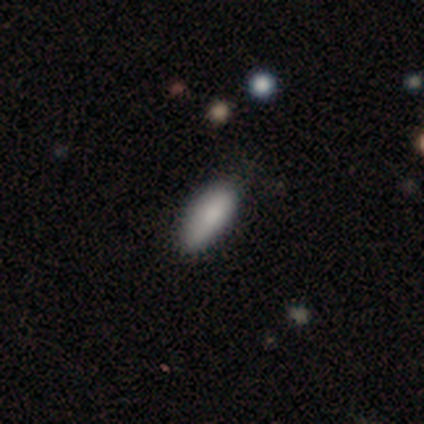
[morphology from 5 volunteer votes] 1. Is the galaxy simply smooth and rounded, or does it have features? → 80% smooth, 20% featured or disk, 0% star or artifact.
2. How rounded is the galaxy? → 50% in between (tied), 50% cigar-shaped (tied), 0% round.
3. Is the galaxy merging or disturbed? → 40% none (tied), 40% minor disturbance (tied), 20% merger, 0% major disturbance.